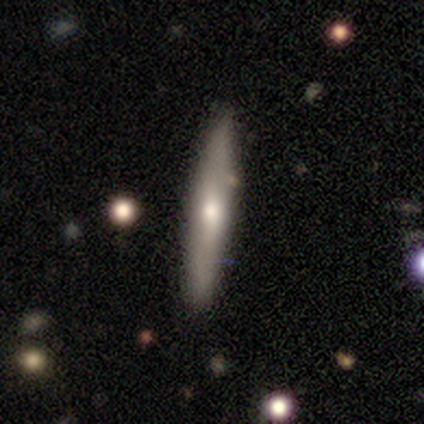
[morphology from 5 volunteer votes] Volunteers were most divided on "smooth or featured": smooth: 80%, featured or disk: 20%, star or artifact: 0%. More confident: how rounded — cigar-shaped (100%); merging — none (80%).